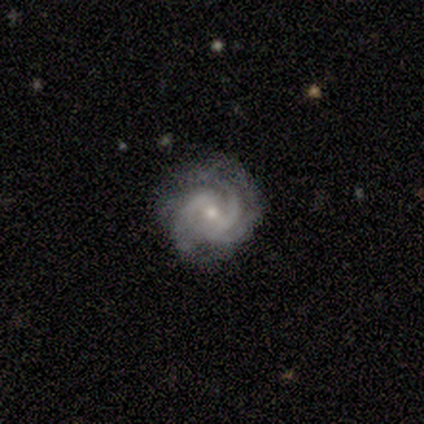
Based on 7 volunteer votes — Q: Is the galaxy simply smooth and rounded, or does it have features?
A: featured or disk — 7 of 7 (100%).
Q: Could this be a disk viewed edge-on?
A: no — 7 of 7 (100%).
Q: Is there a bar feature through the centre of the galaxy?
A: weak — 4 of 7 (57%).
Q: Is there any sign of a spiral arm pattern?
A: yes — 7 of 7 (100%).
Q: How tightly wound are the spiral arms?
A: tight — 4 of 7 (57%).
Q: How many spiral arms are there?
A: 2 — 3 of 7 (43%, tied with 3).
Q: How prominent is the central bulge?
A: moderate — 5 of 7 (71%).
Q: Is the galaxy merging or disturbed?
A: none — 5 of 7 (71%).